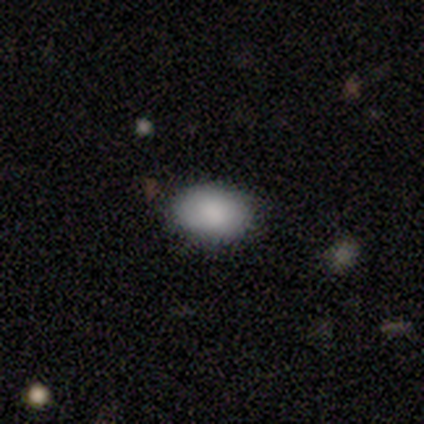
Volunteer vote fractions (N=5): This appears to be a smooth galaxy with no disk features (100%) that is in between round and cigar-shaped (100%). Merging: none (100%).